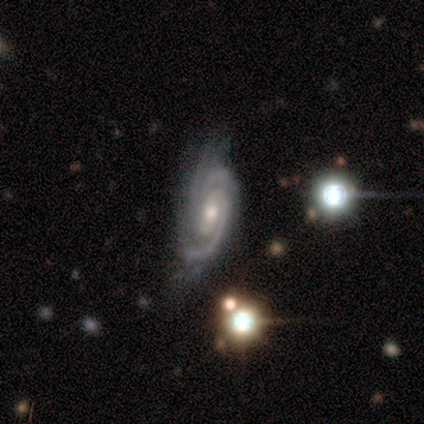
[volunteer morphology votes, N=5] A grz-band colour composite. It shows a featured or disk galaxy (80%) with a weak bar (50%, tied with no), 2 (50%) tight (75%) spiral arms (100%) and a small central bulge (75%). Merging: none (75%).